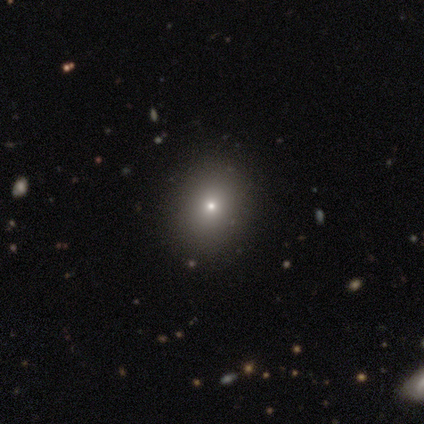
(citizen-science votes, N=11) This appears to be a smooth galaxy with no disk features (64%) that is in between round and cigar-shaped (57%). Merging: none (75%).